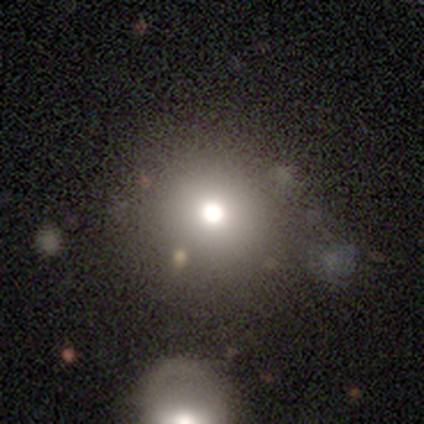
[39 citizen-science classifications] Smooth or featured?
  - smooth: 59% *
  - star or artifact: 26%
  - featured or disk: 15%
How rounded?
  - round: 83% *
  - in between: 17%
  - cigar-shaped: 0%
Merging?
  - none: 52% *
  - merger: 17%
  - major disturbance: 7%
  - minor disturbance: 3%